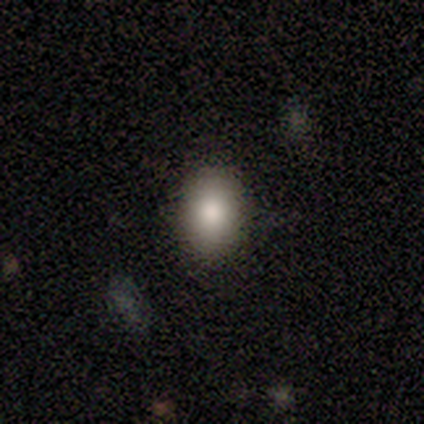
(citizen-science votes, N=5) This appears to be a smooth galaxy with no disk features (80%) that is round (50%, tied with in between). Merging: none (50%, tied with minor disturbance).